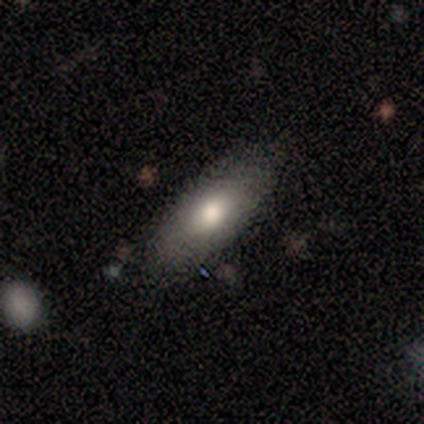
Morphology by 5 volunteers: This appears to be a smooth galaxy with no disk features (100%) that is in between round and cigar-shaped (80%). Merging: none (80%).